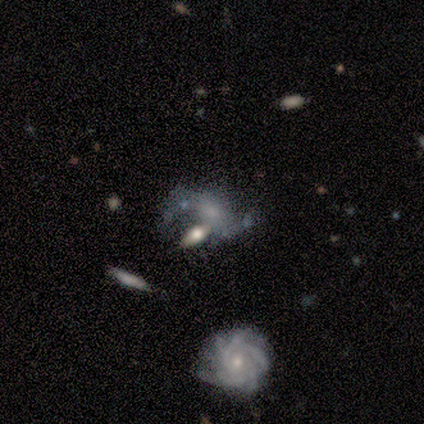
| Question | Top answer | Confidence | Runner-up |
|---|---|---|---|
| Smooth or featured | featured or disk | 74% | smooth (18%) |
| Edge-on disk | no | 90% | yes (10%) |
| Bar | no | 81% | weak (19%) |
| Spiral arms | yes | 77% | no (23%) |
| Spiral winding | loose | 45% | tight (30%) |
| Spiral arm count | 2 | 55% | can't tell (20%) |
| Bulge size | small | 54% | none (27%) |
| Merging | none | 31% | tied: minor disturbance (31%) |